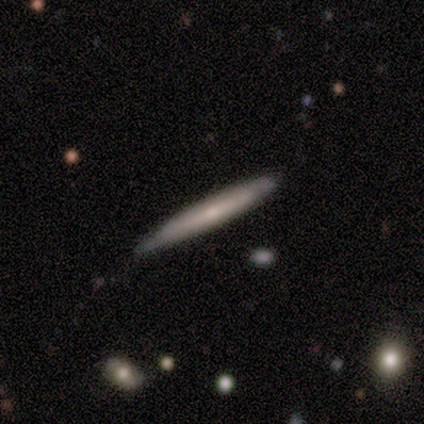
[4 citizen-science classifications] smooth-or-featured: smooth: 50% (tied) | featured or disk: 50% (tied) | star or artifact: 0%
  how-rounded: cigar-shaped: 100% | round: 0% | in between: 0%
  merging: none: 100% | minor disturbance: 0% | major disturbance: 0% | merger: 0%